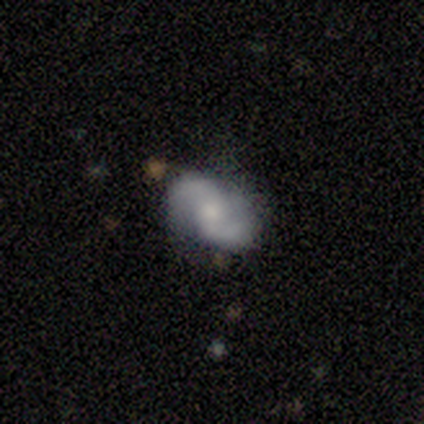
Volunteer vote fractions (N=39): A featured or disk galaxy (85%) with no bar (52%), 2 (100%) loose (58%) spiral arms (100%) and a small central bulge (45%).

Vote fractions:
- Smooth or featured? featured or disk: 85% / smooth: 10% / star or artifact: 5%
- Edge-on disk? no: 100% / yes: 0%
- Bar? no: 52% / weak: 39% / strong: 9%
- Spiral arms? yes: 100% / no: 0%
- Spiral winding? loose: 58% / medium: 30% / tight: 12%
- Spiral arm count? 2: 100% / 1: 0% / 3: 0% / 4: 0% / more than 4: 0% / can't tell: 0%
- Bulge size? small: 45% / moderate: 39% / large: 12% / none: 3% / dominant: 0%
- Merging? none: 73% / minor disturbance: 27% / major disturbance: 0% / merger: 0%